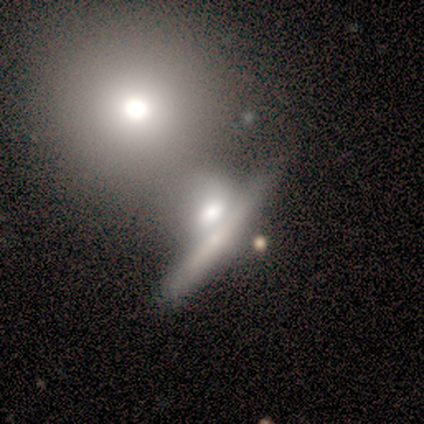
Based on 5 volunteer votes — Volunteers were most divided on "smooth or featured": smooth: 60%, featured or disk: 40%, star or artifact: 0%. More confident: how rounded — in between (67%); merging — merger (60%).